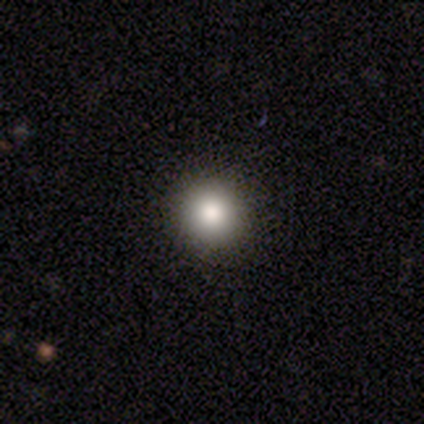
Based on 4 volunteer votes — This is clearly a smooth galaxy (100%). How rounded: likely round (75%). Merging: clearly none (100%).